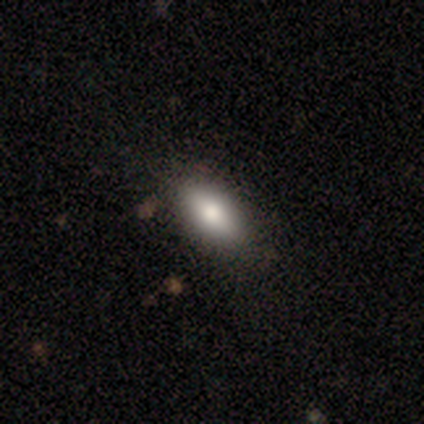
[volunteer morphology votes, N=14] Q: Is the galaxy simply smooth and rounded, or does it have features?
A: smooth — 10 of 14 (71%).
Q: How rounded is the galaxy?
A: in between — 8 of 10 (80%).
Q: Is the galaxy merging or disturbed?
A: none — 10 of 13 (77%).